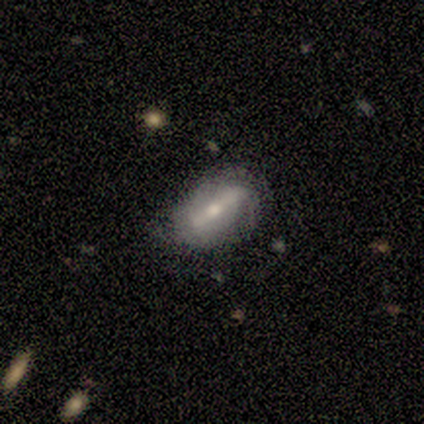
smooth-or-featured: featured or disk: 67% | smooth: 33% | star or artifact: 0%
  disk-edge-on: no: 75% | yes: 25%
    bar: strong: 67% | no: 33% | weak: 0%
    has-spiral-arms: yes: 67% | no: 33%
      spiral-winding: tight: 50% (tied) | loose: 50% (tied) | medium: 0%
      spiral-arm-count: 2: 50% (tied) | can't tell: 50% (tied) | 1: 0% | 3: 0% | 4: 0% | more than 4: 0%
    bulge-size: moderate: 67% | small: 33% | dominant: 0% | large: 0% | none: 0%
  merging: none: 83% | merger: 17% | minor disturbance: 0% | major disturbance: 0%